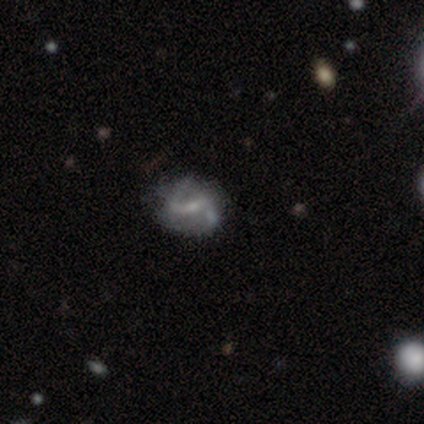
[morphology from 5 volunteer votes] This is likely a featured or disk galaxy (60%). It is clearly not viewed edge-on (100%). Bar: likely weak (67%). Spiral arm pattern: clearly yes (100%). Spiral arm count: clearly 2 (100%). Spiral winding: likely medium (67%). Central bulge: clearly small (100%). Merging: possibly none (50%, tied with minor disturbance).